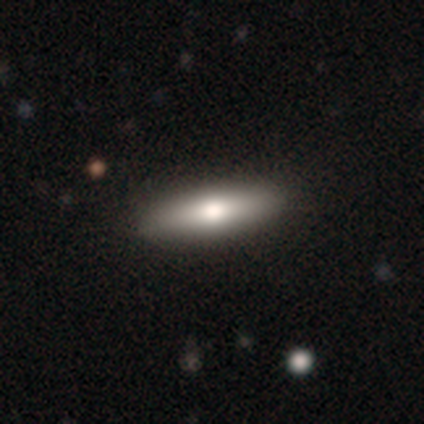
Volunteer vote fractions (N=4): A featured or disk galaxy (75%) viewed edge-on (100%) with a rounded central bulge (100%).

Vote fractions:
- Smooth or featured? featured or disk: 75% / smooth: 25% / star or artifact: 0%
- Edge-on disk? yes: 100% / no: 0%
- Edge-on bulge? rounded: 100% / boxy: 0% / none: 0%
- Merging? none: 75% / major disturbance: 25% / minor disturbance: 0% / merger: 0%